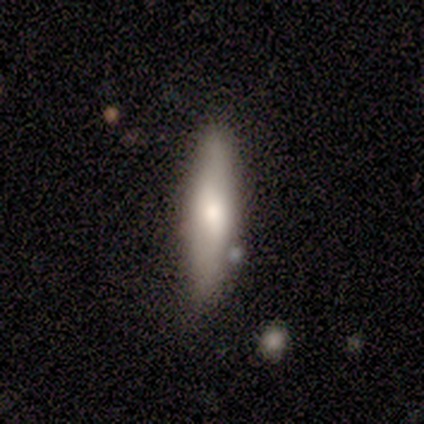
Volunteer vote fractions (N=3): A smooth galaxy with no disk features (67%) that is in between round and cigar-shaped (50%, tied with cigar-shaped). Merging: none (100%).